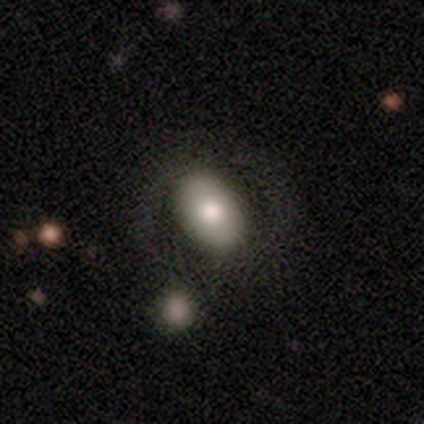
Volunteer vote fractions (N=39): This is likely a smooth galaxy (74%). How rounded: clearly in between (90%). Merging: likely none (65%).